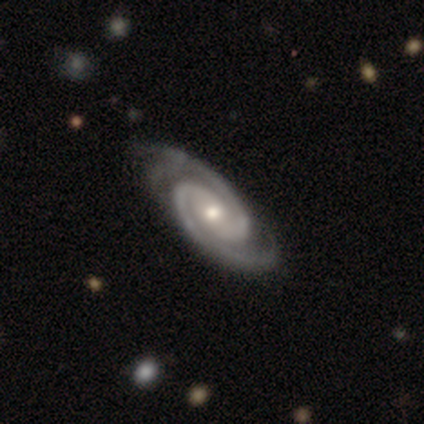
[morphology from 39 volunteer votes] type=featured or disk (97%); edge-on=no (97%); bar=no (54%); spiral arms=yes (100%); winding=tight (51%); arm count=2 (100%); bulge=moderate (57%); merging=none (64%).